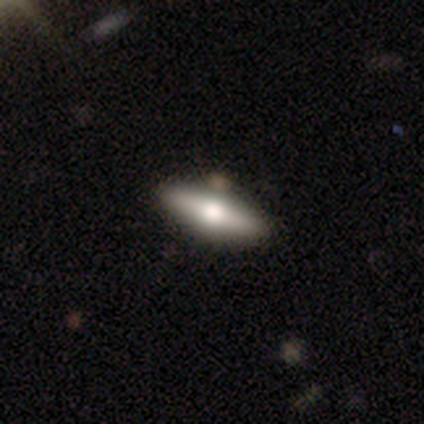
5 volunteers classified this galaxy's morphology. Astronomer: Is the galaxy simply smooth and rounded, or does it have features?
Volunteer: featured or disk — 80%.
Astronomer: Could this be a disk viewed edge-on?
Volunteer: yes — 75%.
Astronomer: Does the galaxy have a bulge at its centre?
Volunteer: rounded — 100%.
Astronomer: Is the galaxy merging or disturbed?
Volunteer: none — 100%.